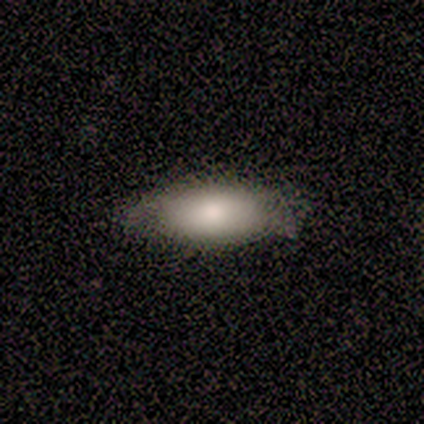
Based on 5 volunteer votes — Smooth or featured: smooth — 80% (featured or disk — 20%)
How rounded: in between — 100%
Merging: none — 100%